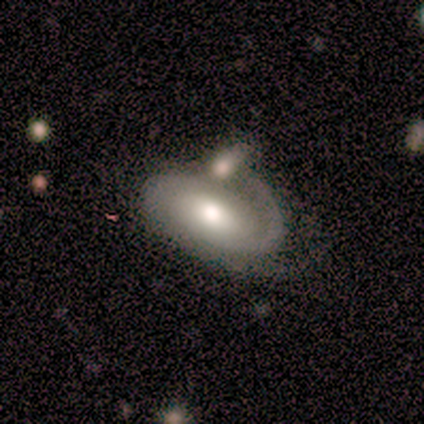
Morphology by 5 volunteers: This appears to be a featured or disk galaxy (100%) with a weak bar (60%), 1 (40%, tied with 2) tight (80%) spiral arms (100%) and a moderate central bulge (80%). Merging: none (40%).